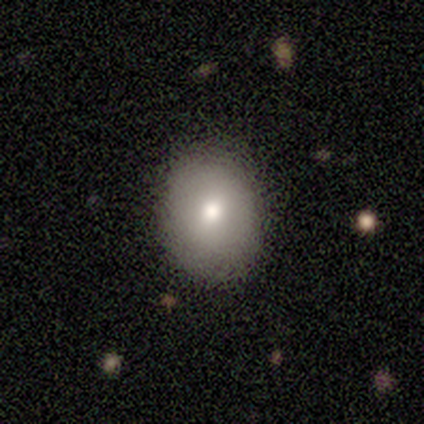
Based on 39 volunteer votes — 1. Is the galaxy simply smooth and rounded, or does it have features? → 69% smooth, 23% featured or disk, 8% star or artifact.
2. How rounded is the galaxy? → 52% round, 48% in between, 0% cigar-shaped.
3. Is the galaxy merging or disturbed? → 86% none, 11% minor disturbance, 3% merger, 0% major disturbance.